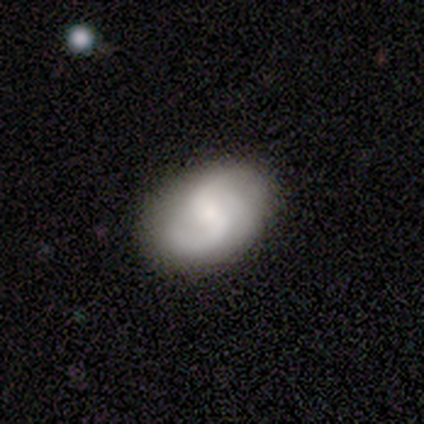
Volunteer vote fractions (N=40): Smooth or featured?
  - featured or disk: 62% *
  - smooth: 28%
  - star or artifact: 10%
Edge-on disk?
  - no: 96% *
  - yes: 4%
Bar?
  - weak: 46% *
  - no: 42%
  - strong: 12%
Spiral arms?
  - yes: 92% *
  - no: 8%
Spiral winding?
  - medium: 41% *
  - loose: 36%
  - tight: 23%
Spiral arm count?
  - 2: 86% *
  - 3: 14%
  - 1: 0%
  - 4: 0%
  - more than 4: 0%
  - can't tell: 0%
Bulge size?
  - small: 67% *
  - moderate: 33%
  - dominant: 0%
  - large: 0%
  - none: 0%
Merging?
  - none: 81% *
  - minor disturbance: 17%
  - major disturbance: 3%
  - merger: 0%